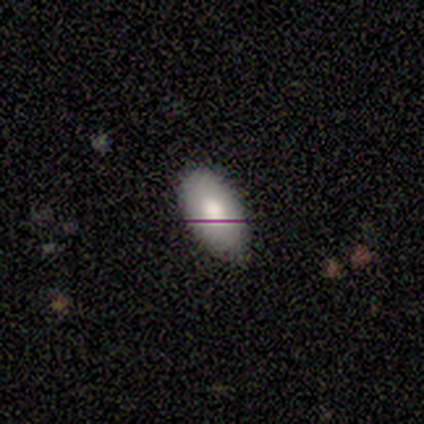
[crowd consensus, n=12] Smooth or featured? 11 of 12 (92%) said smooth. How rounded? 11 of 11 (100%) said in between. Merging? 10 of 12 (83%) said none.